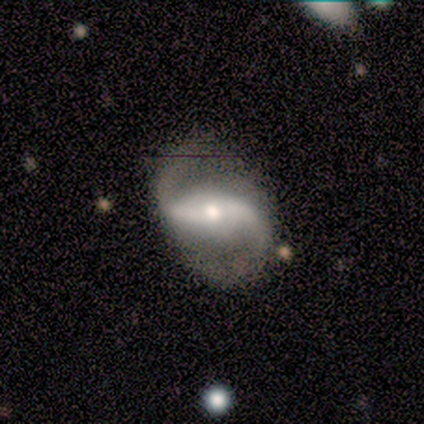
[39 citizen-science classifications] This is clearly a featured or disk galaxy (100%). It is clearly not viewed edge-on (87%). Bar: likely strong (62%). Spiral arm pattern: clearly yes (97%). Spiral arm count: clearly 2 (100%). Spiral winding: likely loose (61%). Central bulge: possibly moderate (53%). Merging: likely none (64%).